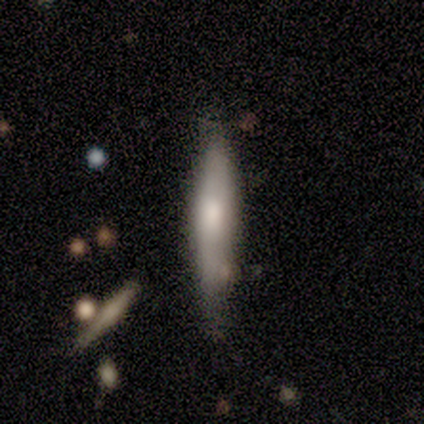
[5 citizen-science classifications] Smooth or featured: smooth — 100%
How rounded: cigar-shaped — 100%
Merging: none — 60% (minor disturbance — 40%)